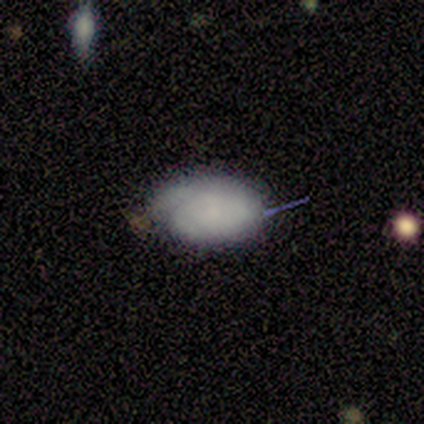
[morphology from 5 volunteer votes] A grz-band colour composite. It shows a smooth galaxy with no disk features (60%) that is in between round and cigar-shaped (100%). Merging: none (75%).